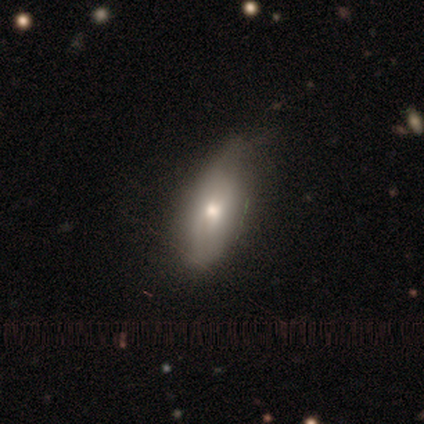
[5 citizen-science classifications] Smooth or featured? 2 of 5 (40%, tied with featured or disk) said smooth. How rounded? 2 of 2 (100%) said in between. Merging? 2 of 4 (50%, tied with minor disturbance) said none.